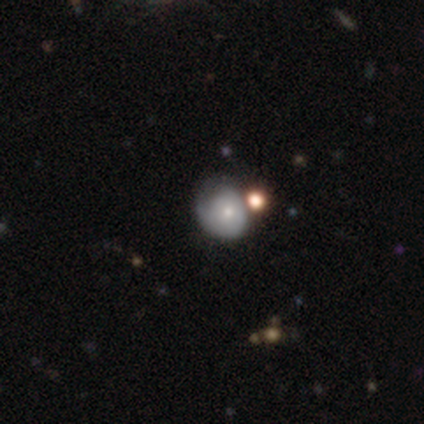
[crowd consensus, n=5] smooth 80%, featured or disk 20%, star or artifact 0%. Down the decision tree: how rounded — round (75%); merging — none (80%).